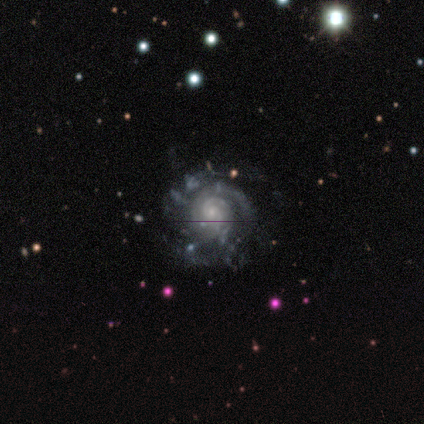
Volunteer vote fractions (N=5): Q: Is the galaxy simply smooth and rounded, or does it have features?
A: featured or disk — 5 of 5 (100%).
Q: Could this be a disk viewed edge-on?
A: no — 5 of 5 (100%).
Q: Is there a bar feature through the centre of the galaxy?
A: no — 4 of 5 (80%).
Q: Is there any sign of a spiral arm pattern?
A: yes — 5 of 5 (100%).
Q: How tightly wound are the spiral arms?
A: tight — 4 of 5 (80%).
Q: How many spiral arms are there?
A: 3 — 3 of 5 (60%).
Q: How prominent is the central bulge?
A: small — 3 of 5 (60%).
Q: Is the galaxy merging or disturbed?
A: none — 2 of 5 (40%, tied with minor disturbance).